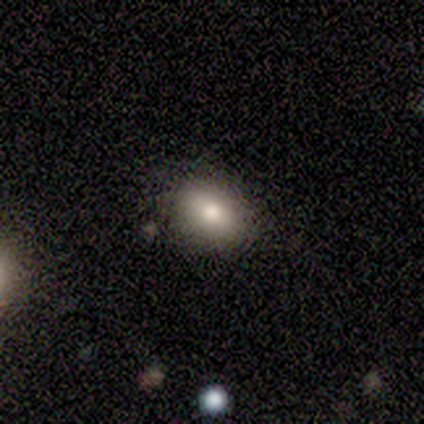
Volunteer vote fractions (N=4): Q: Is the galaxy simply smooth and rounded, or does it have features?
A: smooth — 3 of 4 (75%).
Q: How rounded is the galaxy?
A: in between — 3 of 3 (100%).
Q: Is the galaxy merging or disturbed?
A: none — 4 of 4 (100%).